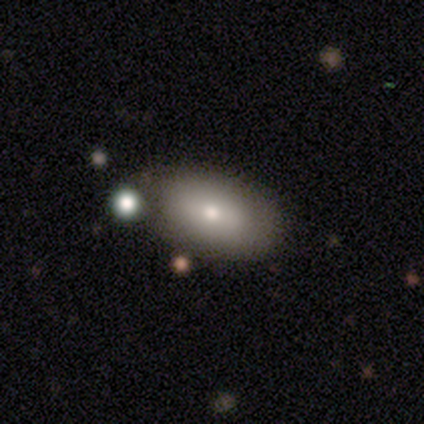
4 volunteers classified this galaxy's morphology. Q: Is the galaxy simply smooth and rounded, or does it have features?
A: smooth — 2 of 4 (50%).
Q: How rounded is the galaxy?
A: in between — 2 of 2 (100%).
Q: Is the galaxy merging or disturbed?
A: none — 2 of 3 (67%).